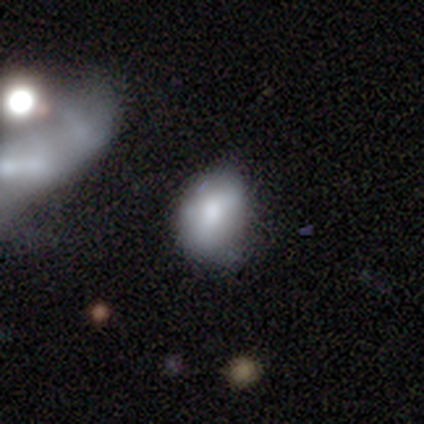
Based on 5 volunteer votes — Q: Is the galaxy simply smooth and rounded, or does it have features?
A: smooth — 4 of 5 (80%).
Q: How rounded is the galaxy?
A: in between — 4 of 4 (100%).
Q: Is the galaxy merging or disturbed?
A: none — 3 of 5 (60%).